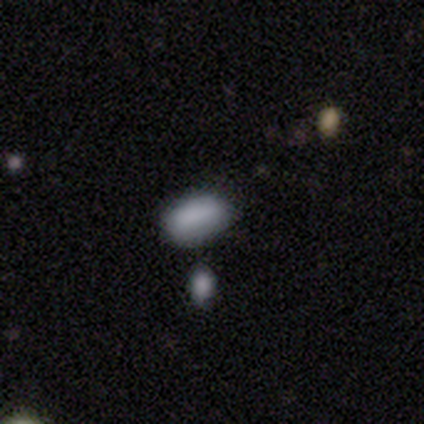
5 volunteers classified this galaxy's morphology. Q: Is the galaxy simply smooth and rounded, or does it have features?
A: smooth — 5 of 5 (100%).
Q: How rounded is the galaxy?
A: in between — 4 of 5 (80%).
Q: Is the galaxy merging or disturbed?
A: none — 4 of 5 (80%).